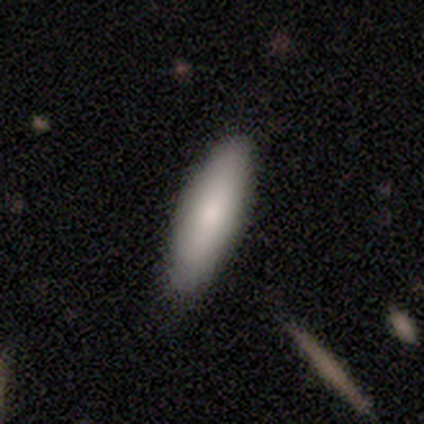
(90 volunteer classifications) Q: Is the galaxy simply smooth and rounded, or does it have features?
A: smooth — 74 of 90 (82%).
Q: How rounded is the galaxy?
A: in between — 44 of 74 (59%).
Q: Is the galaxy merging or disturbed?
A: none — 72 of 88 (82%).